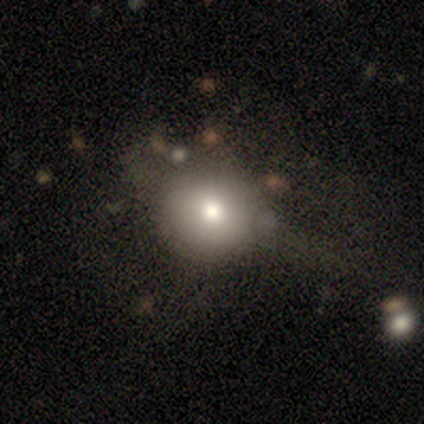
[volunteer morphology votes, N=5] A smooth galaxy with no disk features (60%) that is round (67%).

Vote fractions:
- Smooth or featured? smooth: 60% / featured or disk: 20% / star or artifact: 20%
- How rounded? round: 67% / in between: 33% / cigar-shaped: 0%
- Merging? major disturbance: 75% / none: 25% / minor disturbance: 0% / merger: 0%